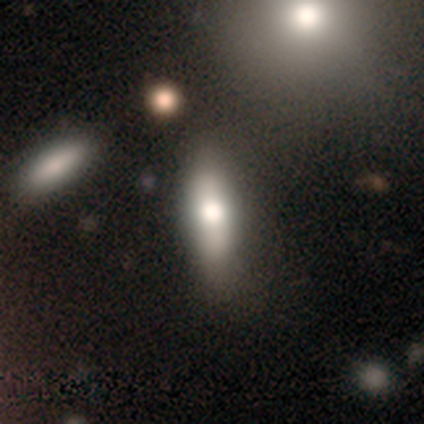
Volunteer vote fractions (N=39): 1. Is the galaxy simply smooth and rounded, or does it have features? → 59% smooth, 36% featured or disk, 5% star or artifact.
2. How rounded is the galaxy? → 57% in between, 43% cigar-shaped, 0% round.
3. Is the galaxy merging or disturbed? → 54% none, 11% merger, 8% minor disturbance, 5% major disturbance.